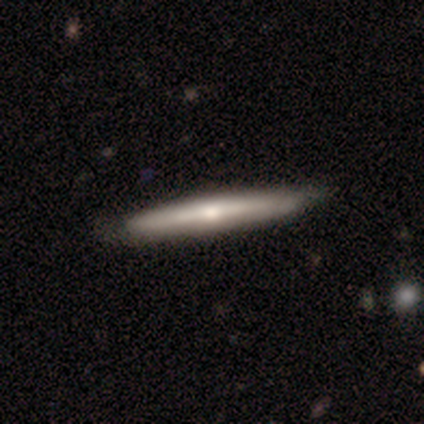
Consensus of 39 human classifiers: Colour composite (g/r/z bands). It shows a featured or disk galaxy (59%) viewed edge-on (96%) with a rounded central bulge (68%). Merging: none (67%).